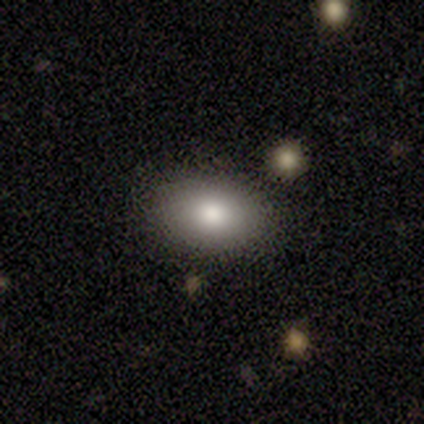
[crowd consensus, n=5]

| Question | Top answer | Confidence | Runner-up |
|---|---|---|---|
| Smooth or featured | smooth | 80% | featured or disk (20%) |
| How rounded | in between | 100% | — |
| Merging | none | 60% | minor disturbance (20%) |